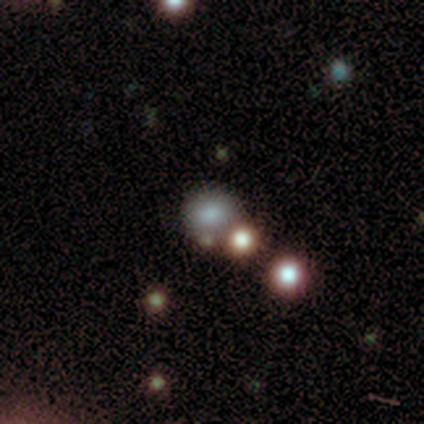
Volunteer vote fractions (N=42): smooth 48%, star or artifact 38%, featured or disk 14%. Down the decision tree: how rounded — round (70%); merging — none (69%).